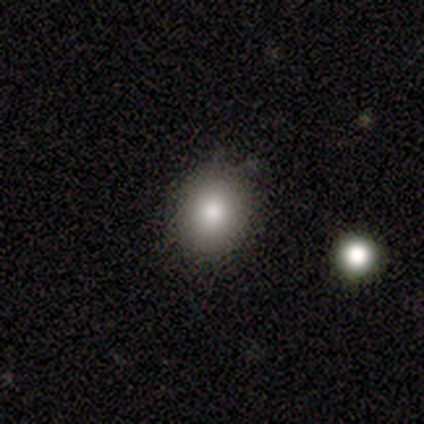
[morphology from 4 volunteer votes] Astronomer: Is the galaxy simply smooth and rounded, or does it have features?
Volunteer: smooth — 75%.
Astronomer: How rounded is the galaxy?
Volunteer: round — 67%.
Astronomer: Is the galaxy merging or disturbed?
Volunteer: none — 75%.